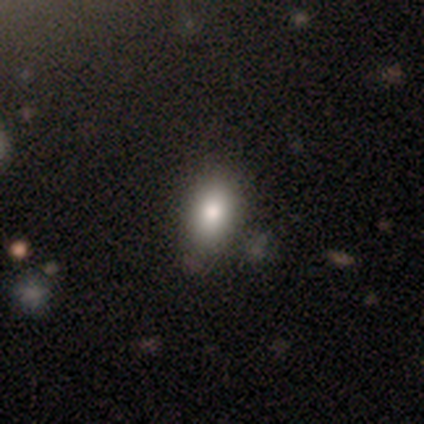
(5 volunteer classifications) A smooth galaxy with no disk features (80%) that is in between round and cigar-shaped (100%).

Vote fractions:
- Smooth or featured? smooth: 80% / star or artifact: 20% / featured or disk: 0%
- How rounded? in between: 100% / round: 0% / cigar-shaped: 0%
- Merging? none: 50% / minor disturbance: 25% / merger: 25% / major disturbance: 0%